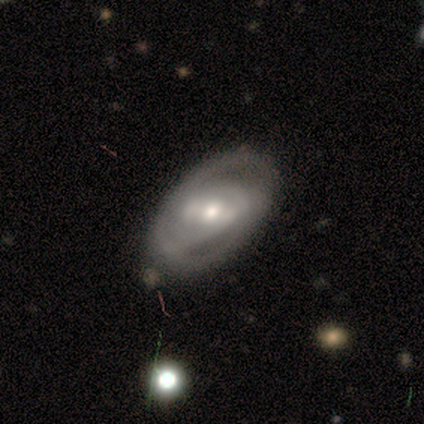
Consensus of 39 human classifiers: This is likely a featured or disk galaxy (74%). It is clearly not viewed edge-on (97%). Bar: marginally weak (43%). Spiral arm pattern: clearly yes (93%). Spiral arm count: possibly 2 (58%). Spiral winding: possibly tight (54%). Central bulge: likely moderate (61%). Merging: likely none (71%).